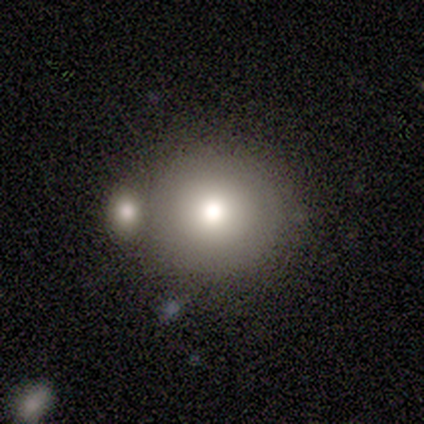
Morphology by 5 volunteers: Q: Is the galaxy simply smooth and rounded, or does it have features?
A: smooth — 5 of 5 (100%).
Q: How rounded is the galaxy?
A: round — 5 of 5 (100%).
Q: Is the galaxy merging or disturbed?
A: none — 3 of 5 (60%).